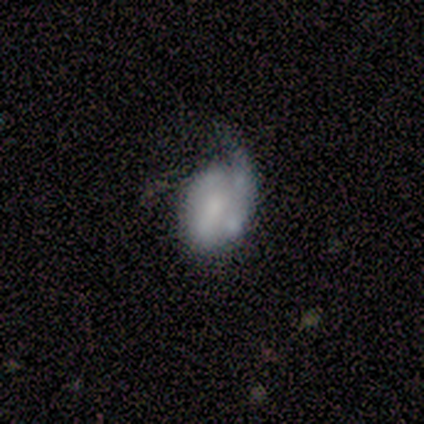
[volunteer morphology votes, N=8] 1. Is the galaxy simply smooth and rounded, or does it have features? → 75% featured or disk, 25% smooth, 0% star or artifact.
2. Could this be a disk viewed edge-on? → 100% no, 0% yes.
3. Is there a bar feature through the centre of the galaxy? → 50% weak, 33% no, 17% strong.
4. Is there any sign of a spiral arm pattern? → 67% yes, 33% no.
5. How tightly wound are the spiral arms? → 100% medium, 0% tight, 0% loose.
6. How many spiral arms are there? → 50% 1, 25% 2, 25% can't tell, 0% 3, 0% 4, 0% more than 4.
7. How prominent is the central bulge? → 50% moderate, 33% small, 17% large, 0% dominant, 0% none.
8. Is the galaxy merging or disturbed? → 38% none (tied), 38% minor disturbance (tied), 12% major disturbance, 12% merger.